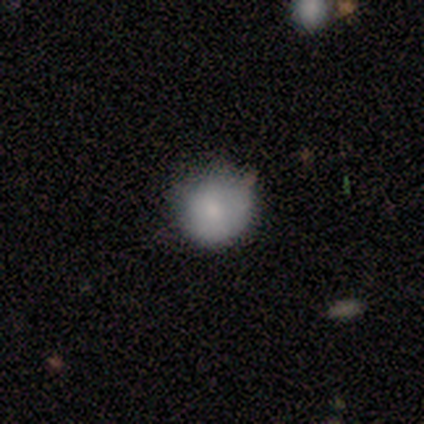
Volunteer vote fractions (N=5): Smooth or featured? 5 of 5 (100%) said smooth. How rounded? 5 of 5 (100%) said round. Merging? 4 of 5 (80%) said none.